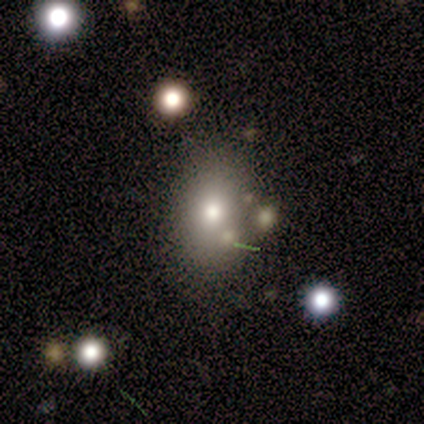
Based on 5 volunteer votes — Smooth or featured? smooth (60%)
How rounded? in between (100%)
Merging? none (50%, tied with merger)